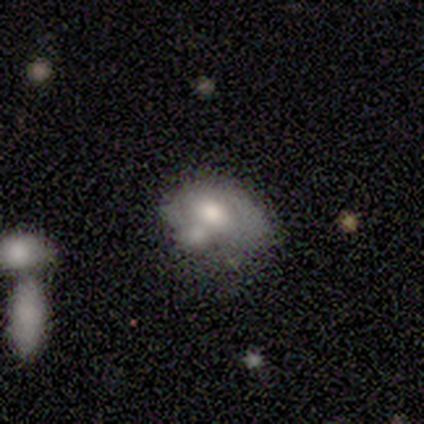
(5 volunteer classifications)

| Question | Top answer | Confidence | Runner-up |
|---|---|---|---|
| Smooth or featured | smooth | 80% | featured or disk (20%) |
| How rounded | in between | 75% | round (25%) |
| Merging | none | 40% | tied: merger (40%) |